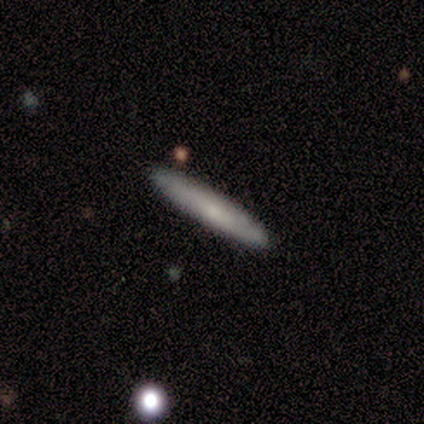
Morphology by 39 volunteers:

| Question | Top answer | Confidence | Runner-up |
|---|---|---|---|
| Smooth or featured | smooth | 59% | featured or disk (38%) |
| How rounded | cigar-shaped | 100% | — |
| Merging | none | 79% | minor disturbance (13%) |